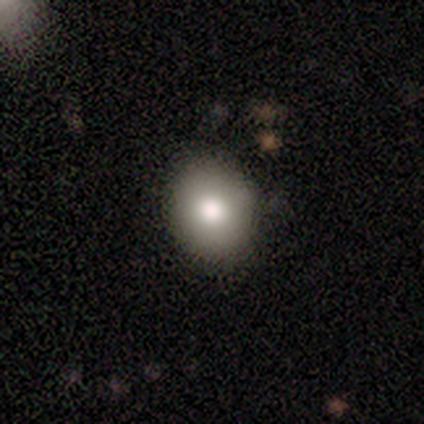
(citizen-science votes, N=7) smooth_or_featured: smooth (p=0.86) [alt: star or artifact p=0.14]
how_rounded: round (p=0.67) [alt: in between p=0.33]
merging: none (p=1.00)